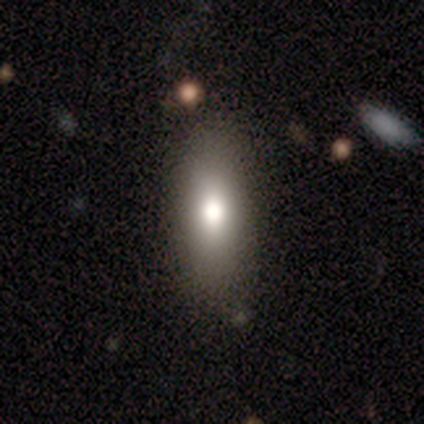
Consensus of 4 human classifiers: Morphology: type=smooth (75%); roundness=in between (100%); merging=none (75%).